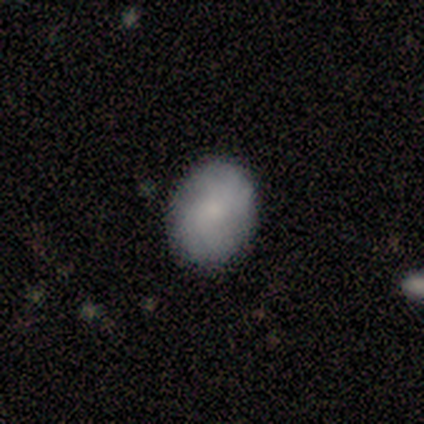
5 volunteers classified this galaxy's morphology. Overall: smooth (80%). How rounded: round (50%, tied with in between). Merging: none (100%).